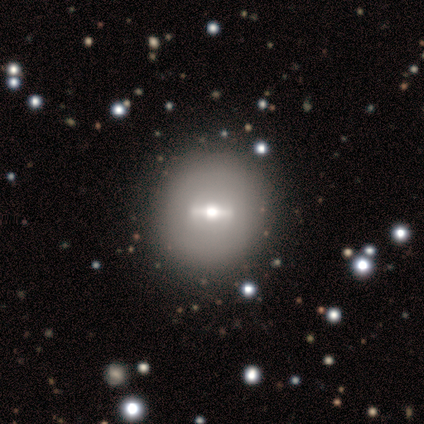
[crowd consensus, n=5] smooth_or_featured: featured or disk (p=0.60) [alt: smooth p=0.40]
disk_edge_on: no (p=0.67) [alt: yes p=0.33]
bar: strong (p=0.50) [tied with: weak p=0.50]
has_spiral_arms: no (p=1.00)
bulge_size: moderate (p=1.00)
merging: none (p=0.60) [alt: minor disturbance p=0.40]